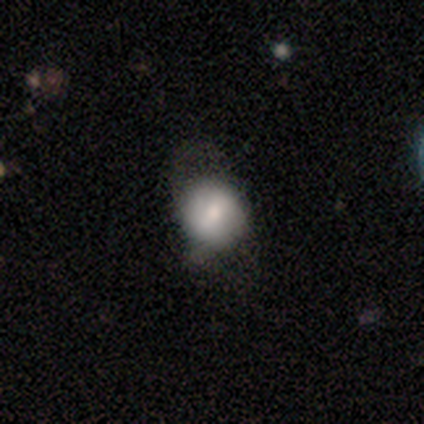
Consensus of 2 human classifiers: Smooth or featured? smooth (100%)
How rounded? round (50%, tied with in between)
Merging? none (100%)